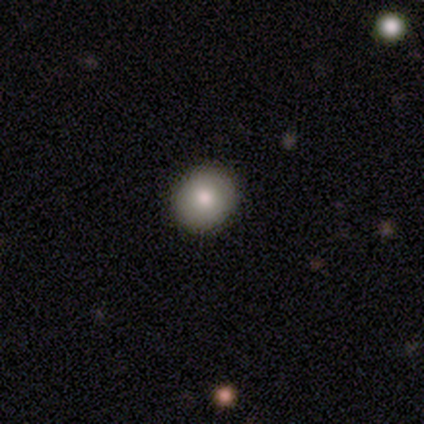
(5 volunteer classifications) Smooth or featured? 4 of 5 (80%) said smooth. How rounded? 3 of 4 (75%) said round. Merging? 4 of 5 (80%) said none.